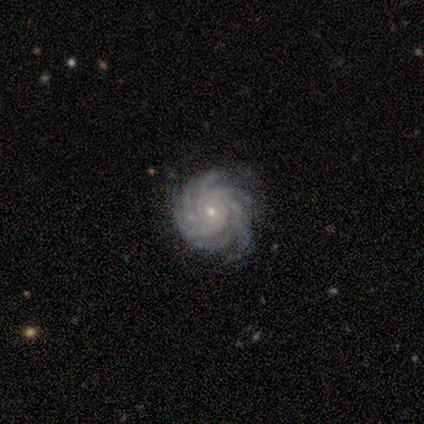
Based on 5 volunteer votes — Overall: featured or disk (80%). Edge-on disk: no (100%). Bar: no (75%). Spiral arms: yes (100%). Spiral arm count: more than 4 (75%). Spiral winding: tight (75%). Bulge size: small (75%). Merging: none (75%).